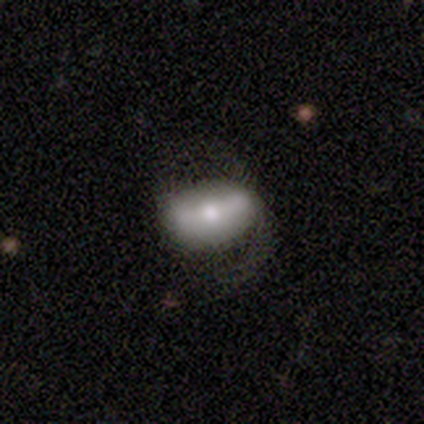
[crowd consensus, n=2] This appears to be a smooth galaxy with no disk features (50%, tied with featured or disk) that is in between round and cigar-shaped (100%). Merging: minor disturbance (50%, tied with major disturbance).